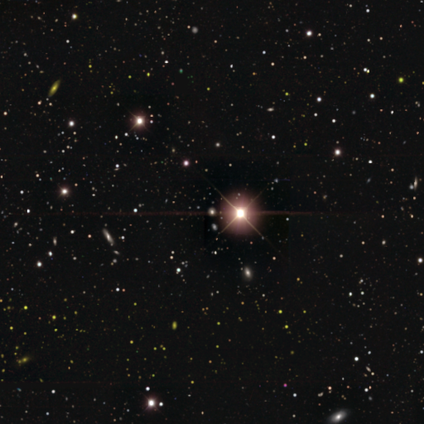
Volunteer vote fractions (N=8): Volunteers were most divided on "smooth or featured": star or artifact: 75%, smooth: 25%, featured or disk: 0%.